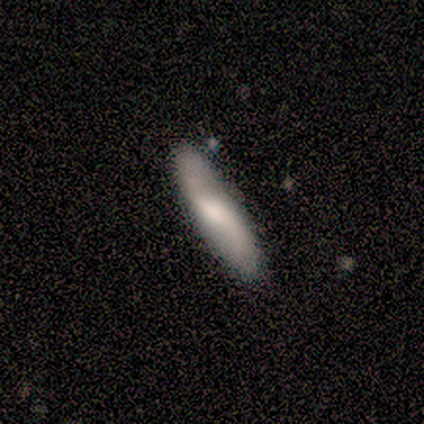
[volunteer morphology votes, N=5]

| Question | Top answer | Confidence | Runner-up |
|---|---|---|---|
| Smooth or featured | smooth | 100% | — |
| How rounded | cigar-shaped | 80% | in between (20%) |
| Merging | none | 100% | — |